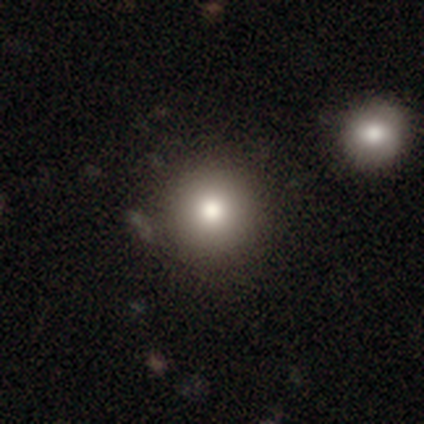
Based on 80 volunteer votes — Smooth or featured?
  - smooth: 85% *
  - featured or disk: 10%
  - star or artifact: 5%
How rounded?
  - round: 99% *
  - in between: 1%
  - cigar-shaped: 0%
Merging?
  - none: 55% *
  - merger: 12%
  - minor disturbance: 3%
  - major disturbance: 0%